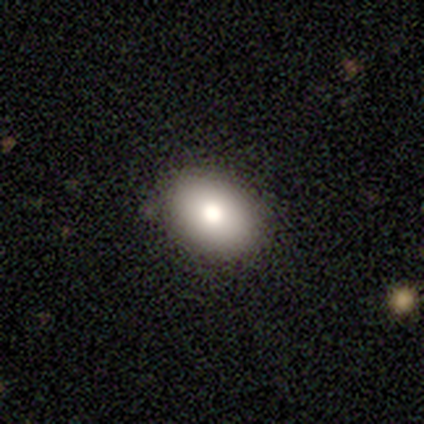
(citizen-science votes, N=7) smooth_or_featured: smooth (p=0.86) [alt: featured or disk p=0.14]
how_rounded: in between (p=0.67) [alt: round p=0.33]
merging: none (p=1.00)